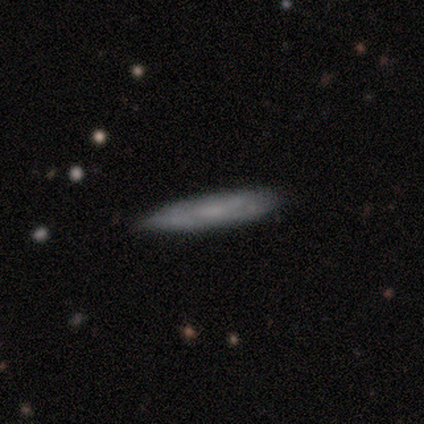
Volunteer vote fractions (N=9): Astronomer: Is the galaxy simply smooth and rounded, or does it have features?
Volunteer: featured or disk — 56% (runner-up: smooth, 44%).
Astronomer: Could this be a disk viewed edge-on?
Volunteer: yes — 80%.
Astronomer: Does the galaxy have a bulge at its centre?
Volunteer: none — 75%.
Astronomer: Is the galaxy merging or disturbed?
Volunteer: none — 78%.